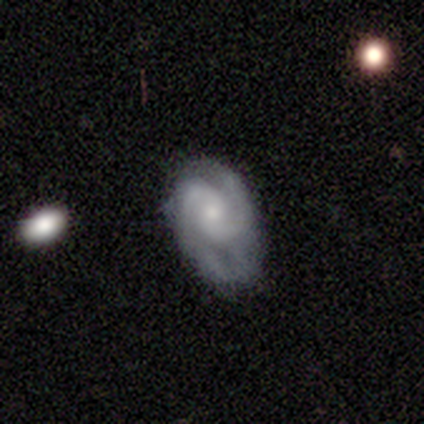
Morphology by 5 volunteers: A featured or disk galaxy (80%) with a strong bar (33%, tied with weak and no), 2 (100%) medium (67%) spiral arms (100%) and a small central bulge (100%).

Vote fractions:
- Smooth or featured? featured or disk: 80% / smooth: 20% / star or artifact: 0%
- Edge-on disk? no: 75% / yes: 25%
- Bar? strong: 33% (tied) / weak: 33% (tied) / no: 33% (tied)
- Spiral arms? yes: 100% / no: 0%
- Spiral winding? medium: 67% / tight: 33% / loose: 0%
- Spiral arm count? 2: 100% / 1: 0% / 3: 0% / 4: 0% / more than 4: 0% / can't tell: 0%
- Bulge size? small: 100% / dominant: 0% / large: 0% / moderate: 0% / none: 0%
- Merging? none: 40% (tied) / minor disturbance: 40% (tied) / major disturbance: 20% / merger: 0%